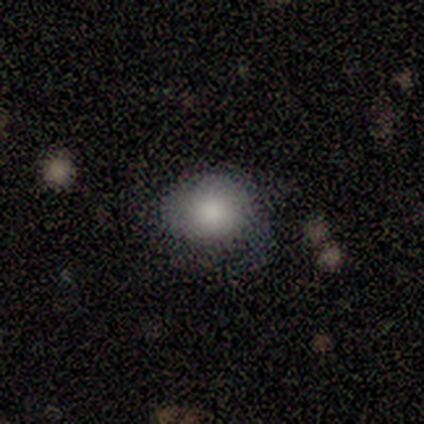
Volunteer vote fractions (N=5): smooth_or_featured: smooth (p=0.80) [alt: featured or disk p=0.20]
how_rounded: round (p=1.00)
merging: none (p=0.60) [alt: minor disturbance p=0.20]